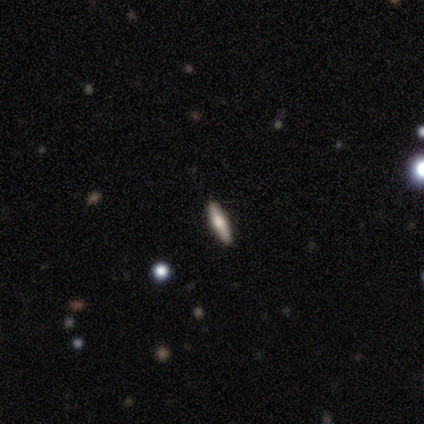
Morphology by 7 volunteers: Smooth or featured: featured or disk — 57% (smooth — 29%)
Edge-on disk: yes — 100%
Edge-on bulge: rounded — 100%
Merging: none — 100%